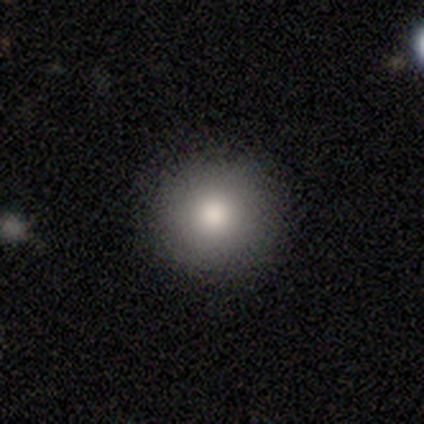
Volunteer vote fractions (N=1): smooth-or-featured: featured or disk: 100% | smooth: 0% | star or artifact: 0%
  disk-edge-on: no: 100% | yes: 0%
    bar: no: 100% | strong: 0% | weak: 0%
    has-spiral-arms: yes: 100% | no: 0%
      spiral-winding: tight: 100% | medium: 0% | loose: 0%
      spiral-arm-count: can't tell: 100% | 1: 0% | 2: 0% | 3: 0% | 4: 0% | more than 4: 0%
    bulge-size: large: 100% | dominant: 0% | moderate: 0% | small: 0% | none: 0%
  merging: none: 100% | minor disturbance: 0% | major disturbance: 0% | merger: 0%